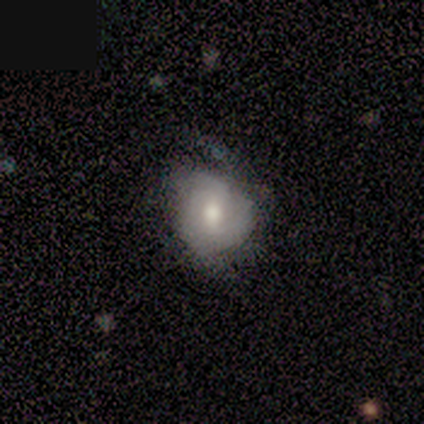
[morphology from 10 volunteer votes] Smooth or featured? featured or disk (70%)
Edge-on disk? no (100%)
Bar? no (86%)
Spiral arms? no (57%)
Bulge size? moderate (86%)
Merging? minor disturbance (56%)